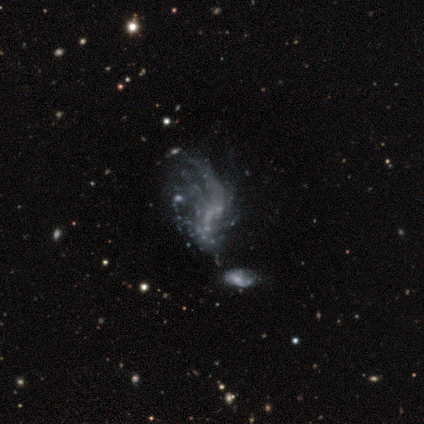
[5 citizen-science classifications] Volunteers were most divided on "bar" (3-way tie): strong: 33%, weak: 33%, no: 33%. More confident: edge-on disk — no (100%); bulge size — none (100%); merging — major disturbance (75%); spiral arms — no (67%); smooth or featured — featured or disk (60%).